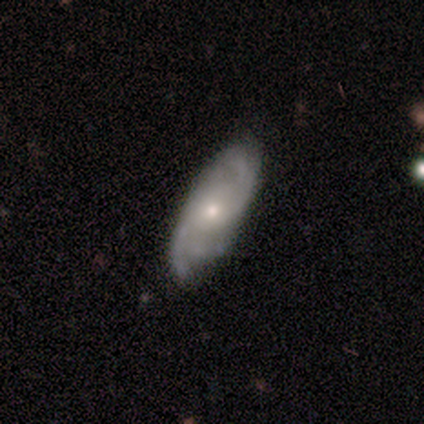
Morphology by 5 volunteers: This is clearly a featured or disk galaxy (80%). It is likely not viewed edge-on (75%). Bar: clearly no (100%). Spiral arm pattern: clearly yes (100%). Spiral arm count: likely 2 (67%). Spiral winding: clearly medium (100%). Central bulge: likely small (67%). Merging: clearly none (80%).